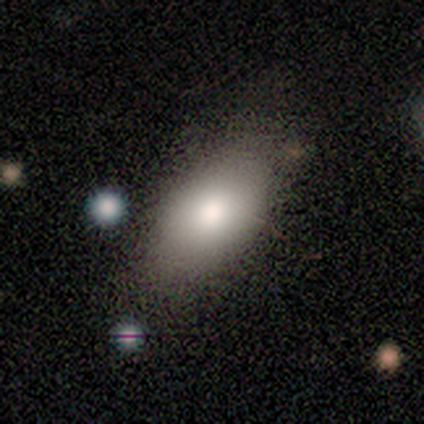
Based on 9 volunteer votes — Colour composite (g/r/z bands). It shows a smooth galaxy with no disk features (89%) that is in between round and cigar-shaped (88%). Merging: none (100%).